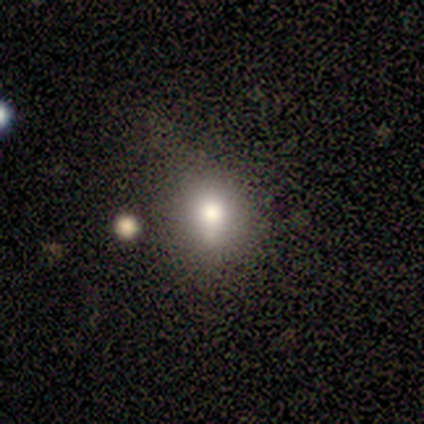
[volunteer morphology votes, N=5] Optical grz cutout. It shows a smooth galaxy with no disk features (100%) that is round (60%). Merging: none (80%).